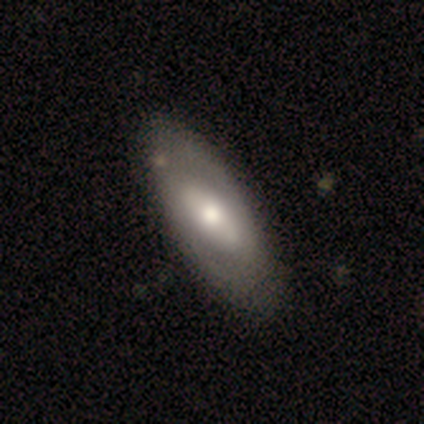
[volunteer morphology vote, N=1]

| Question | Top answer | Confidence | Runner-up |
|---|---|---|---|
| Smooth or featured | featured or disk | 100% | — |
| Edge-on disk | no | 100% | — |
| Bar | no | 100% | — |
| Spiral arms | yes | 100% | — |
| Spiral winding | medium | 100% | — |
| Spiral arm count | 2 | 100% | — |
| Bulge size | large | 100% | — |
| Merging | minor disturbance | 100% | — |